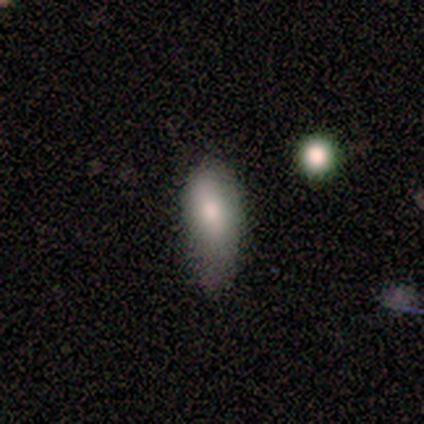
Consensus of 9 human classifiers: Volunteers were most divided on "merging": minor disturbance: 44%, none: 33%, major disturbance: 22%, merger: 0%. More confident: smooth or featured — smooth (100%); how rounded — in between (100%).